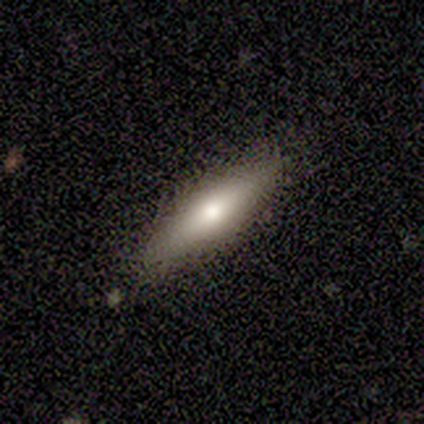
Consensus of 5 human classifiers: Volunteers were most divided on "smooth or featured" (2-way tie): smooth: 40%, featured or disk: 40%, star or artifact: 20%; "merging" (2-way tie): none: 50%, minor disturbance: 50%, major disturbance: 0%, merger: 0%. More confident: how rounded — cigar-shaped (100%).